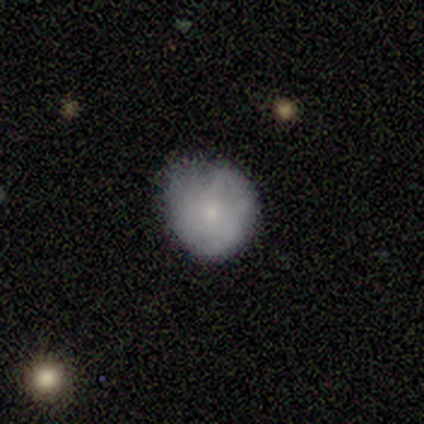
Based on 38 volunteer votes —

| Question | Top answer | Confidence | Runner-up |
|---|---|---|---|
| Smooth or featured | smooth | 63% | featured or disk (26%) |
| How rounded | round | 88% | in between (12%) |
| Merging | none | 47% | minor disturbance (32%) |